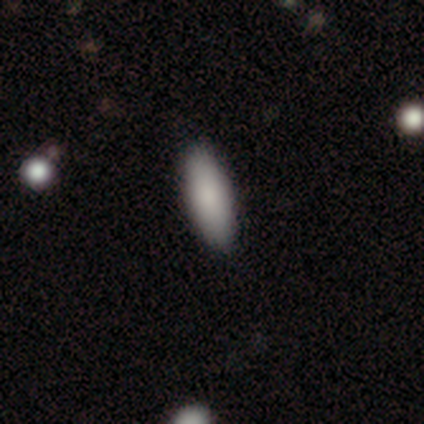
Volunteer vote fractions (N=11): Smooth or featured? 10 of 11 (91%) said smooth. How rounded? 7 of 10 (70%) said in between. Merging? 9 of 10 (90%) said none.